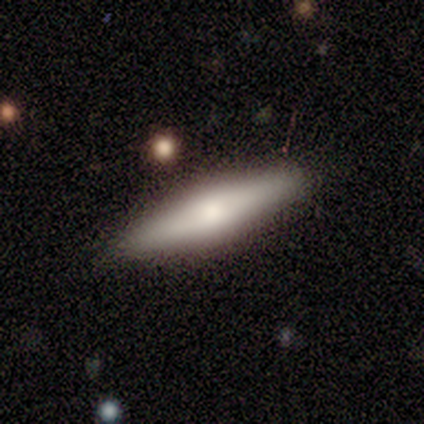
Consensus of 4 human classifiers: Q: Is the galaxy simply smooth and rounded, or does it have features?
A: smooth — 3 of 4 (75%).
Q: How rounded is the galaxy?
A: cigar-shaped — 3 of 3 (100%).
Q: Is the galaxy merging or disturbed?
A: none — 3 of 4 (75%).